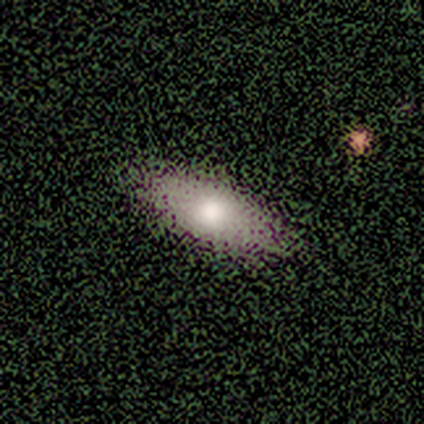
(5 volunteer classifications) A smooth galaxy with no disk features (100%) that is in between round and cigar-shaped (100%).

Vote fractions:
- Smooth or featured? smooth: 100% / featured or disk: 0% / star or artifact: 0%
- How rounded? in between: 100% / round: 0% / cigar-shaped: 0%
- Merging? none: 80% / minor disturbance: 20% / major disturbance: 0% / merger: 0%